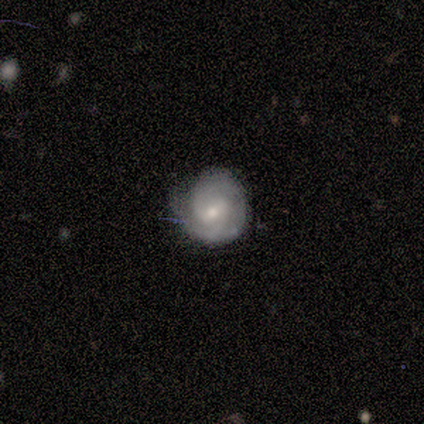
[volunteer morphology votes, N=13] smooth 54%, featured or disk 46%, star or artifact 0%. Down the decision tree: how rounded — round (100%); merging — none (69%).